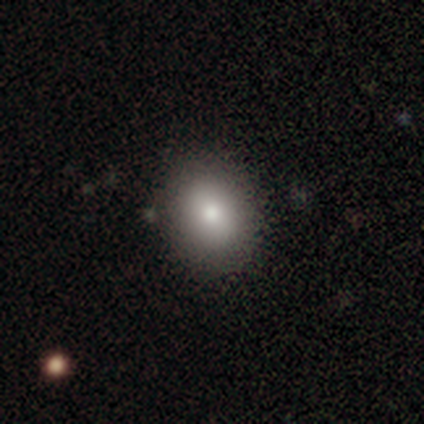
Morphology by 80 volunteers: Overall: smooth (78%). How rounded: round (50%, tied with in between). Merging: none (45%; minor disturbance 5%).